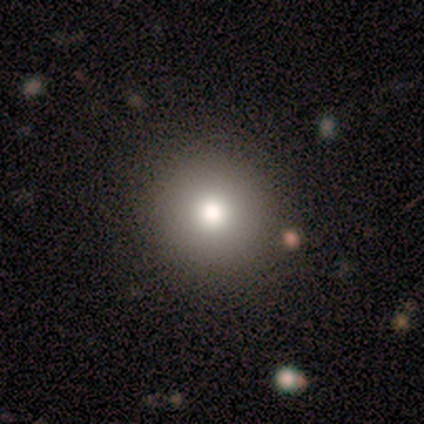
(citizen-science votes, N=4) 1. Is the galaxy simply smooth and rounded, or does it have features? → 75% smooth, 25% featured or disk, 0% star or artifact.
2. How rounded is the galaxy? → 100% round, 0% in between, 0% cigar-shaped.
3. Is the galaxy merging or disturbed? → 100% none, 0% minor disturbance, 0% major disturbance, 0% merger.